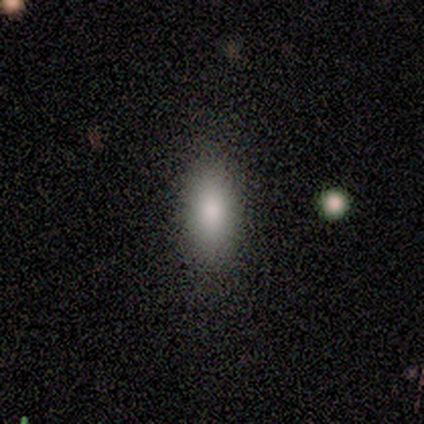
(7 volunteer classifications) Q: Smooth or featured?
A: smooth (100%)
Q: How rounded?
A: in between (86%); runner-up: cigar-shaped (14%)
Q: Merging?
A: none (100%)